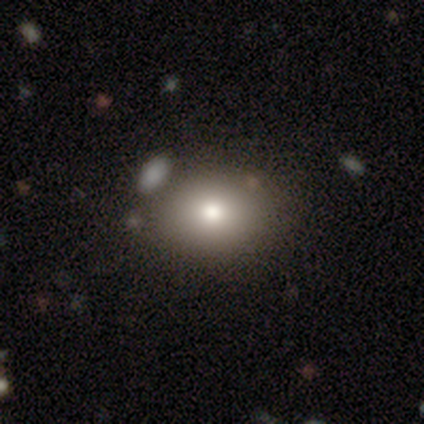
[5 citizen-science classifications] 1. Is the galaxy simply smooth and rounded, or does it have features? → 100% smooth, 0% featured or disk, 0% star or artifact.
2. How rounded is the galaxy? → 60% round, 40% in between, 0% cigar-shaped.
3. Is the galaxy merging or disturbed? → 100% none, 0% minor disturbance, 0% major disturbance, 0% merger.